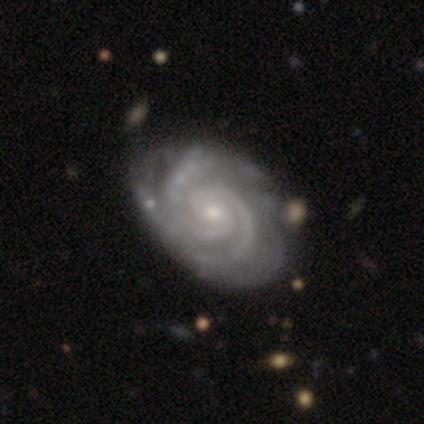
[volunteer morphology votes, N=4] smooth-or-featured: featured or disk: 100% | smooth: 0% | star or artifact: 0%
  disk-edge-on: no: 100% | yes: 0%
    bar: no: 100% | strong: 0% | weak: 0%
    has-spiral-arms: yes: 100% | no: 0%
      spiral-winding: tight: 100% | medium: 0% | loose: 0%
      spiral-arm-count: 3: 75% | 2: 25% | 1: 0% | 4: 0% | more than 4: 0% | can't tell: 0%
    bulge-size: small: 75% | moderate: 25% | dominant: 0% | large: 0% | none: 0%
  merging: none: 75% | merger: 25% | minor disturbance: 0% | major disturbance: 0%